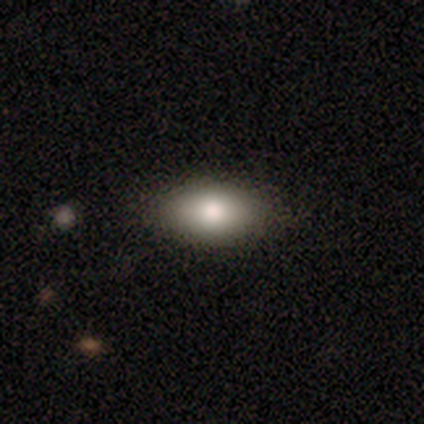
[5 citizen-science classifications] Smooth or featured? 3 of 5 (60%) said smooth. How rounded? 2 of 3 (67%) said in between. Merging? 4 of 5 (80%) said none.